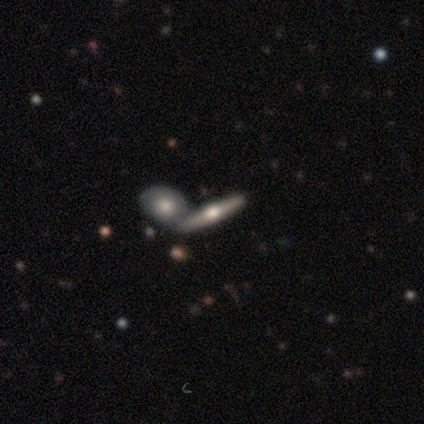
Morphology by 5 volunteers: featured or disk 60%, smooth 40%, star or artifact 0%. Down the decision tree: edge-on disk — yes (100%); edge-on bulge — rounded (100%); merging — none (60%).